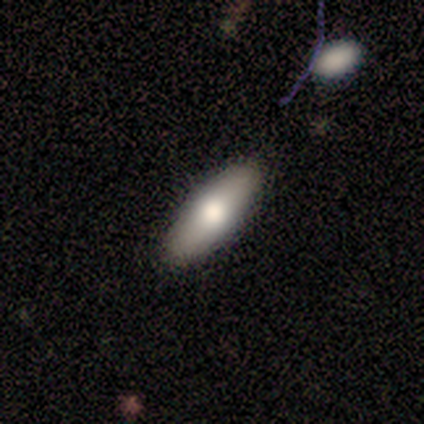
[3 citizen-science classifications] This is clearly a smooth galaxy (100%). How rounded: likely cigar-shaped (67%). Merging: clearly none (100%).